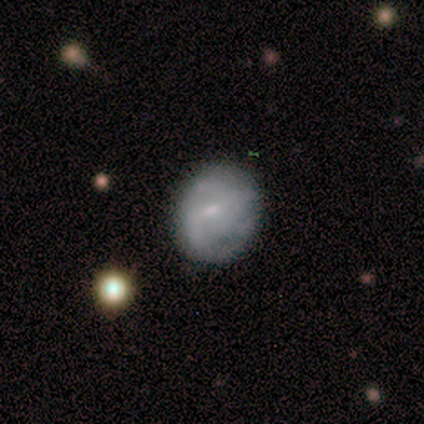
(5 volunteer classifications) Smooth or featured?
  - featured or disk: 60% *
  - smooth: 40%
  - star or artifact: 0%
Edge-on disk?
  - no: 100% *
  - yes: 0%
Bar?
  - no: 67% *
  - weak: 33%
  - strong: 0%
Spiral arms?
  - no: 100% *
  - yes: 0%
Bulge size?
  - small: 67% *
  - none: 33%
  - dominant: 0%
  - large: 0%
  - moderate: 0%
Merging?
  - none: 80% *
  - minor disturbance: 20%
  - major disturbance: 0%
  - merger: 0%